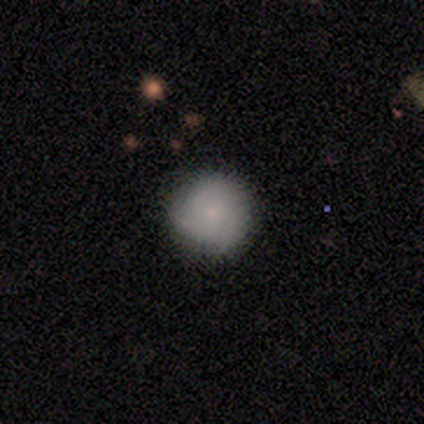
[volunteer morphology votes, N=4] smooth 75%, featured or disk 25%, star or artifact 0%. Down the decision tree: how rounded — round (100%); merging — none (75%).